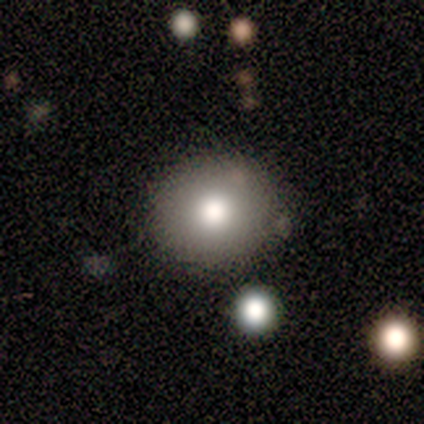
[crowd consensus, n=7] Smooth or featured?
  - smooth: 71% *
  - star or artifact: 29%
  - featured or disk: 0%
How rounded?
  - round: 80% *
  - in between: 20%
  - cigar-shaped: 0%
Merging?
  - none: 80% *
  - minor disturbance: 20%
  - major disturbance: 0%
  - merger: 0%